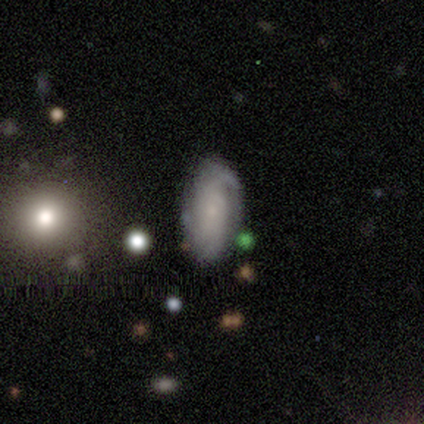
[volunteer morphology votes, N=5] Q: Smooth or featured?
A: featured or disk (80%); runner-up: smooth (20%)
Q: Edge-on disk?
A: no (100%)
Q: Bar?
A: no (100%)
Q: Spiral arms?
A: yes (100%)
Q: Spiral winding?
A: loose (50%); runner-up: tight (25%)
Q: Spiral arm count?
A: 2 (75%); runner-up: can't tell (25%)
Q: Bulge size?
A: small (75%); runner-up: moderate (25%)
Q: Merging?
A: none (60%); runner-up: minor disturbance (20%)